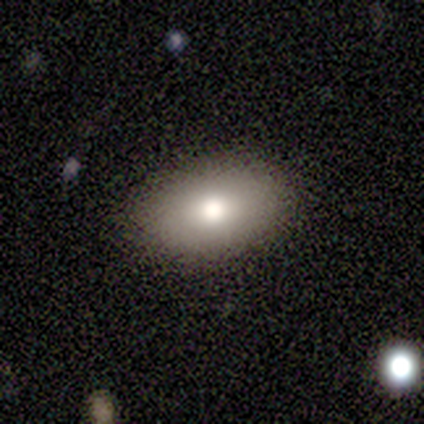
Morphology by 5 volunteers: This appears to be a smooth galaxy with no disk features (100%) that is in between round and cigar-shaped (100%). Merging: none (100%).